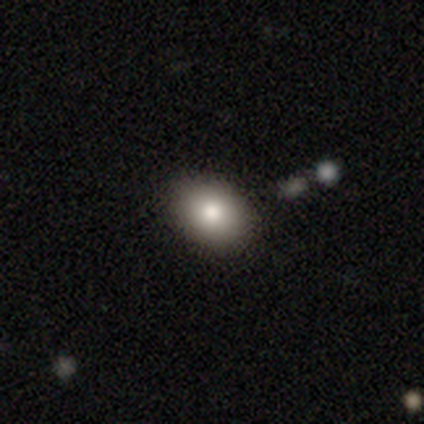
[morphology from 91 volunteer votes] Q: Smooth or featured?
A: smooth (81%); runner-up: star or artifact (14%)
Q: How rounded?
A: in between (69%); runner-up: round (31%)
Q: Merging?
A: none (88%); runner-up: minor disturbance (10%)